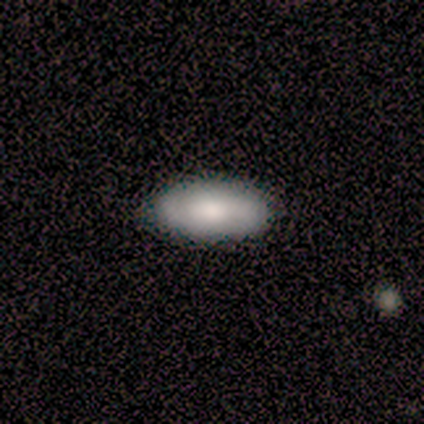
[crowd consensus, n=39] Smooth or featured?
  - smooth: 67% *
  - featured or disk: 31%
  - star or artifact: 3%
How rounded?
  - in between: 96% *
  - round: 4%
  - cigar-shaped: 0%
Merging?
  - none: 66% *
  - minor disturbance: 5%
  - merger: 3%
  - major disturbance: 0%